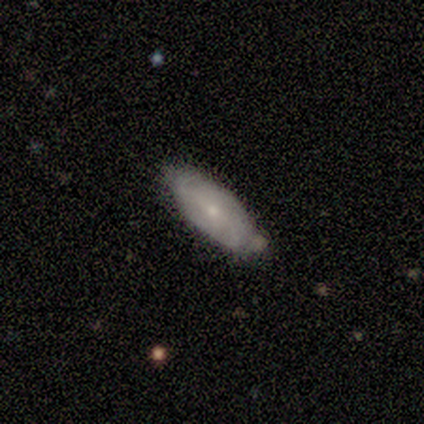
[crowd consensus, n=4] Smooth or featured? 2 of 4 (50%, tied with featured or disk) said smooth. How rounded? 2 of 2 (100%) said in between. Merging? 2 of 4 (50%) said none.